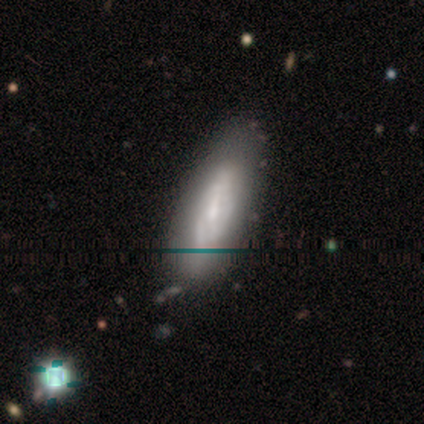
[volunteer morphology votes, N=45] This is marginally a smooth galaxy (44%). How rounded: likely in between (70%). Merging: marginally none (41%).